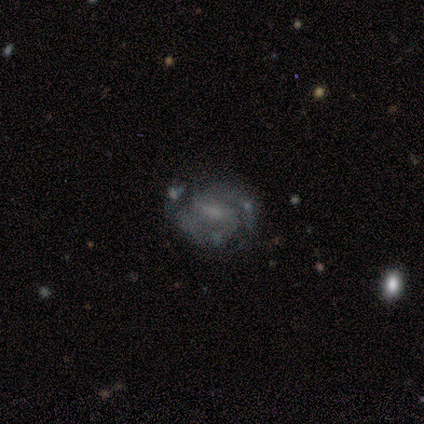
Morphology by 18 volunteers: This is clearly a featured or disk galaxy (94%). It is clearly not viewed edge-on (100%). Bar: possibly weak (59%). Spiral arm pattern: clearly yes (100%). Spiral arm count: clearly 2 (88%). Spiral winding: possibly medium (53%). Central bulge: possibly small (47%). Merging: likely none (71%).